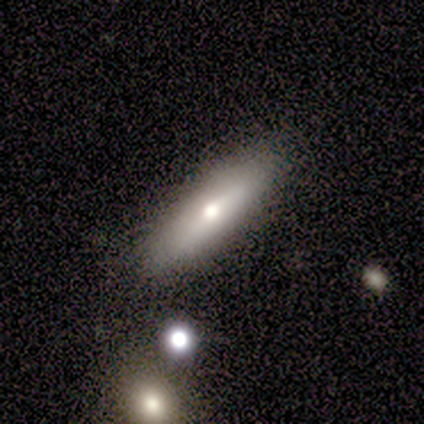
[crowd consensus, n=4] Smooth or featured? 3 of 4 (75%) said smooth. How rounded? 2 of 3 (67%) said cigar-shaped. Merging? 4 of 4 (100%) said none.